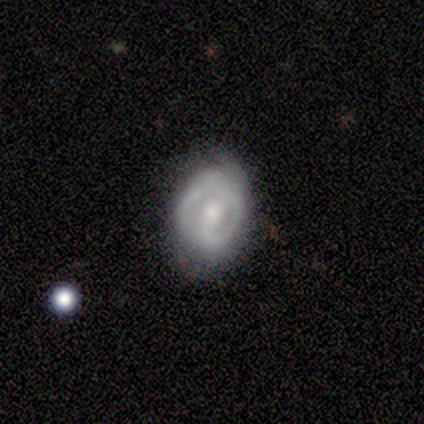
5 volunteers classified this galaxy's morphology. Smooth or featured? featured or disk (100%)
Edge-on disk? no (100%)
Bar? weak (60%)
Spiral arms? no (60%)
Bulge size? moderate (60%)
Merging? none (60%)